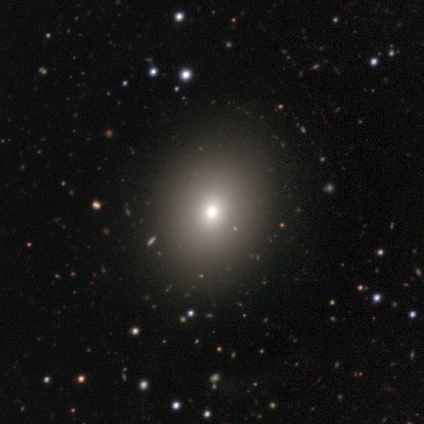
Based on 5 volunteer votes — smooth 60%, star or artifact 40%, featured or disk 0%. Down the decision tree: how rounded — round (67%); merging — none (100%).